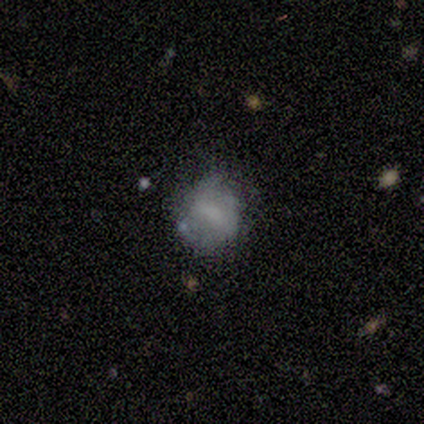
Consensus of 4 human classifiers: This appears to be a smooth galaxy with no disk features (50%, tied with featured or disk) that is round (100%). Merging: none (100%).